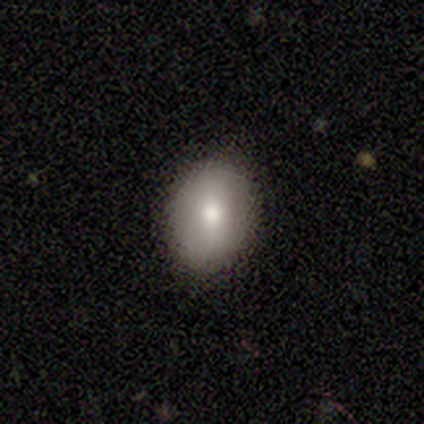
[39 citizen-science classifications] This is likely a smooth galaxy (72%). How rounded: likely in between (68%). Merging: clearly none (86%).